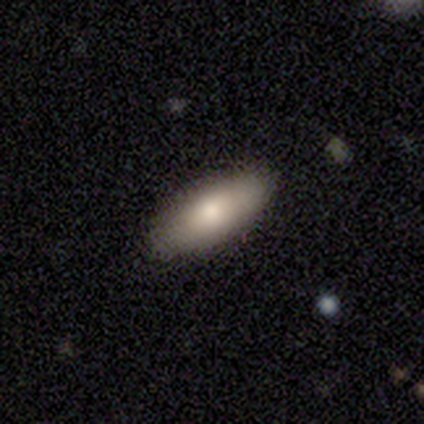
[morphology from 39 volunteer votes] Volunteers were most divided on "how rounded": in between: 76%, cigar-shaped: 24%, round: 0%. More confident: merging — none (92%); smooth or featured — smooth (74%).